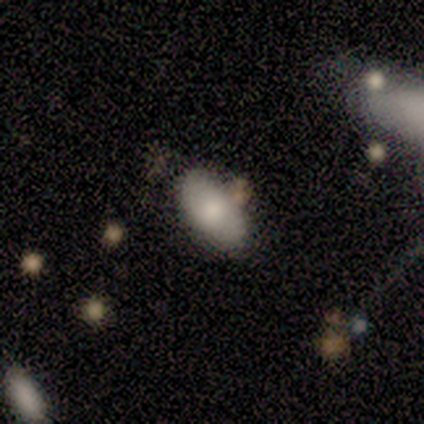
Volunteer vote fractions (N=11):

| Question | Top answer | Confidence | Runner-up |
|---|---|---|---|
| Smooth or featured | smooth | 64% | featured or disk (18%) |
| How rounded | in between | 100% | — |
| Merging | none | 67% | minor disturbance (33%) |